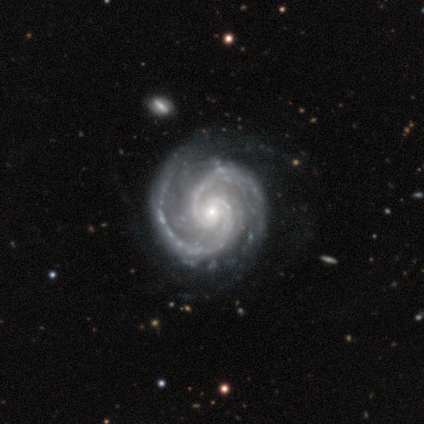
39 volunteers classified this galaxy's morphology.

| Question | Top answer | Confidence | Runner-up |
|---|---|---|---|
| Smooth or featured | featured or disk | 100% | — |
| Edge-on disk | no | 100% | — |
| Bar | no | 62% | weak (31%) |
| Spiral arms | yes | 100% | — |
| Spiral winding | tight | 51% | medium (49%) |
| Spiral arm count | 2 | 95% | 4 (5%) |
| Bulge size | small | 82% | moderate (10%) |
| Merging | none | 49% | minor disturbance (13%) |